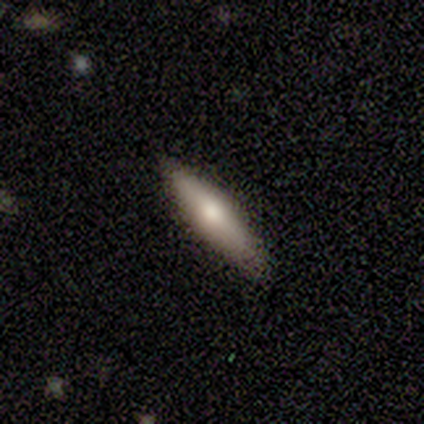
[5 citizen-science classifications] Smooth or featured? 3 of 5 (60%) said featured or disk. Edge-on disk? 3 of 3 (100%) said yes. Edge-on bulge? 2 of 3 (67%) said rounded. Merging? 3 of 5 (60%) said none.